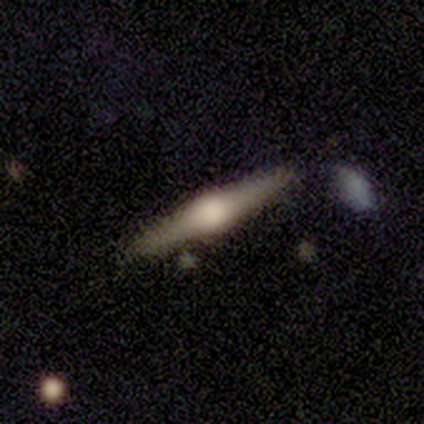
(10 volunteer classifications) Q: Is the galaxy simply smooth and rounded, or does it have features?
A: featured or disk — 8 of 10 (80%).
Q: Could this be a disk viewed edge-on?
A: yes — 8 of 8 (100%).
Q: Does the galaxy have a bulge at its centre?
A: rounded — 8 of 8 (100%).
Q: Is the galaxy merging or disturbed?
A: none — 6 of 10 (60%).